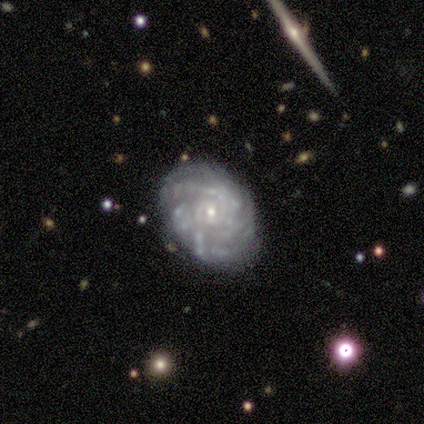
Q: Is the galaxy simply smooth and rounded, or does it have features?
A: featured or disk — 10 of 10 (100%).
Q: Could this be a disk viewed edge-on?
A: no — 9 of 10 (90%).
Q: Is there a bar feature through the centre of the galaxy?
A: no — 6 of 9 (67%).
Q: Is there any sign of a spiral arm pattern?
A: yes — 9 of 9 (100%).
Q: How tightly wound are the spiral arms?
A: tight — 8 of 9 (89%).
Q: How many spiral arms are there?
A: can't tell — 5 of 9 (56%).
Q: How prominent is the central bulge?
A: small — 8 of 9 (89%).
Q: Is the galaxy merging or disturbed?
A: none — 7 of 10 (70%).